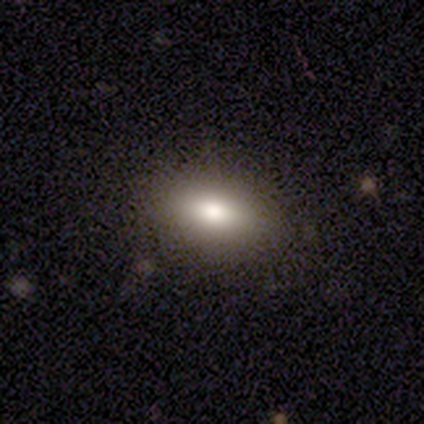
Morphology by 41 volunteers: This appears to be a smooth galaxy with no disk features (76%) that is in between round and cigar-shaped (90%). Merging: none (76%).